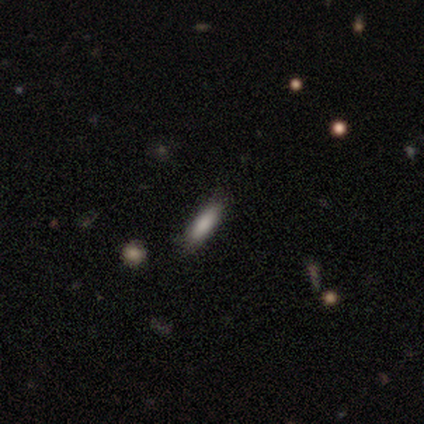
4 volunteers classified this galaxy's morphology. Smooth or featured? smooth (75%)
How rounded? cigar-shaped (67%)
Merging? none (67%)